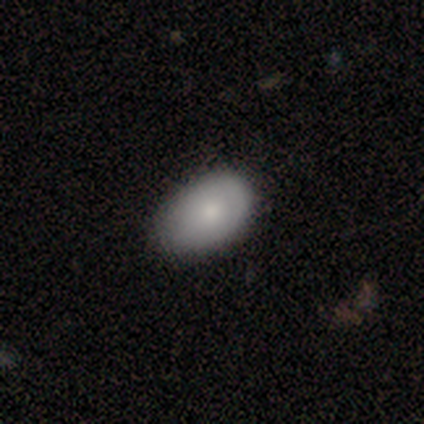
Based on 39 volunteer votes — Morphology: type=smooth (77%); roundness=in between (87%); merging=none (50%).